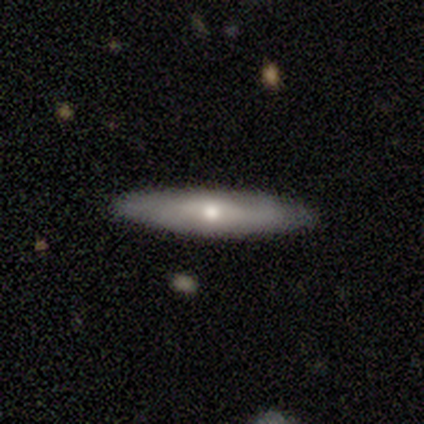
Smooth or featured? smooth (60%)
How rounded? cigar-shaped (79%)
Merging? none (82%)